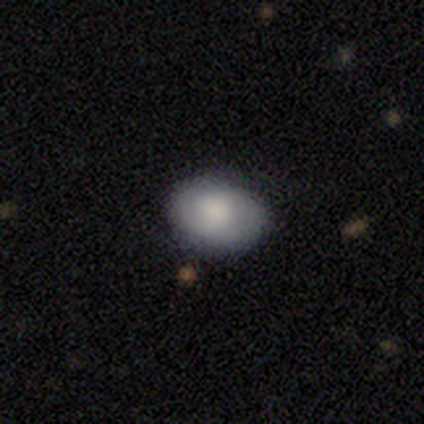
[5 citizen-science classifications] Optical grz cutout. It shows a smooth galaxy with no disk features (100%) that is round (60%). Merging: none (80%).